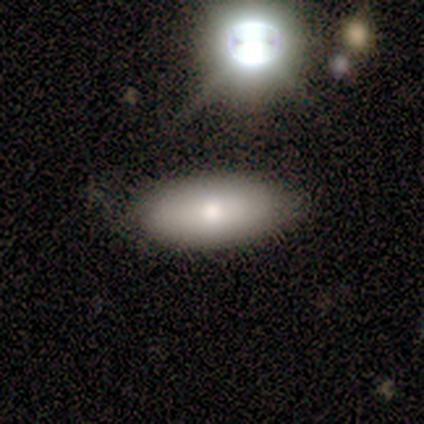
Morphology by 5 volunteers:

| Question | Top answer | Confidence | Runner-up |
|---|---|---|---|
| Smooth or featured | smooth | 80% | star or artifact (20%) |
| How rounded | in between | 100% | — |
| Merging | none | 75% | minor disturbance (25%) |